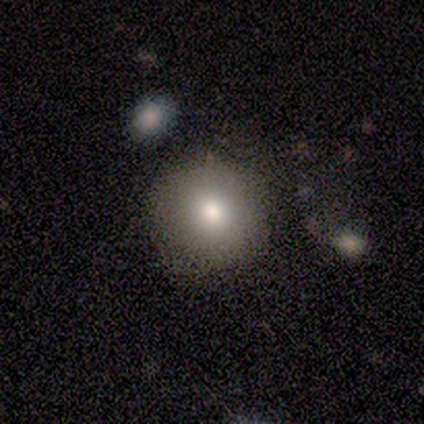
smooth_or_featured: smooth (p=0.80) [alt: star or artifact p=0.20]
how_rounded: round (p=1.00)
merging: none (p=1.00)